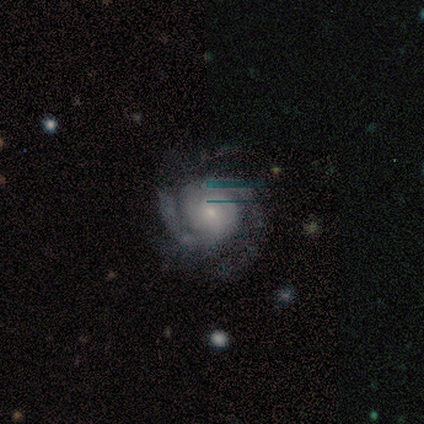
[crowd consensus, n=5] Overall: featured or disk (100%). Edge-on disk: no (100%). Bar: no (100%). Spiral arms: yes (100%). Spiral arm count: 2 (60%; 4 20%). Spiral winding: tight (80%). Bulge size: small (100%). Merging: none (60%; minor disturbance 40%).